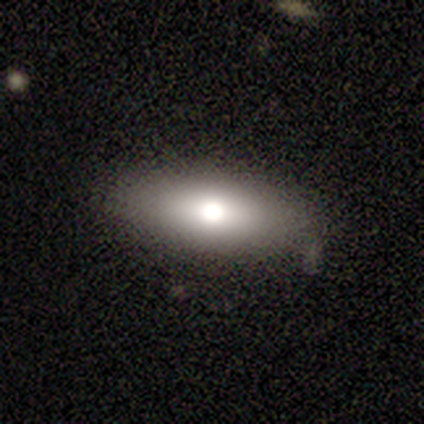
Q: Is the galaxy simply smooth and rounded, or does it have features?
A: smooth — 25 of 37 (68%).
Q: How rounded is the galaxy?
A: in between — 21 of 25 (84%).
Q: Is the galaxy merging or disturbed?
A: none — 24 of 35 (69%).